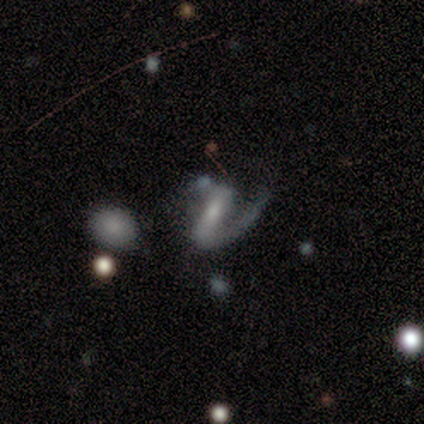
This is clearly a featured or disk galaxy (100%). It is clearly not viewed edge-on (100%). Bar: likely strong (60%). Spiral arm pattern: clearly yes (100%). Spiral arm count: likely 1 (60%). Spiral winding: likely medium (60%). Central bulge: clearly moderate (80%). Merging: marginally minor disturbance (40%, tied with major disturbance).